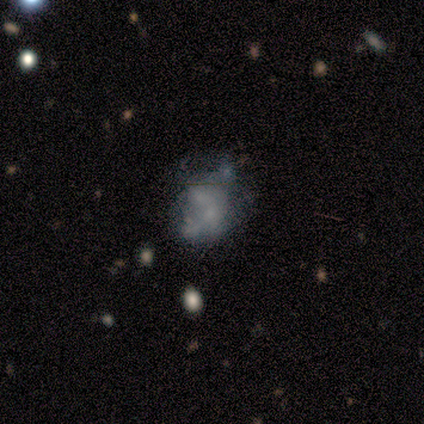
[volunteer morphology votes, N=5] Smooth or featured: featured or disk — 80% (smooth — 20%)
Edge-on disk: no — 100%
Bar: no — 75% (weak — 25%)
Spiral arms: no — 100%
Bulge size: none — 75% (small — 25%)
Merging: merger — 40% (none — 20%)